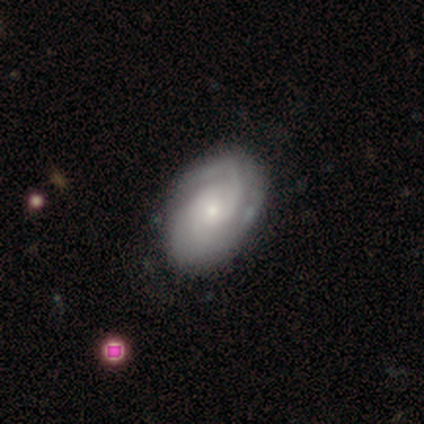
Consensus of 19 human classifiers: This appears to be a featured or disk galaxy (74%) with no bar (64%), 2 (38%) tight (46%) spiral arms (93%) and a small central bulge (79%). Merging: none (88%).